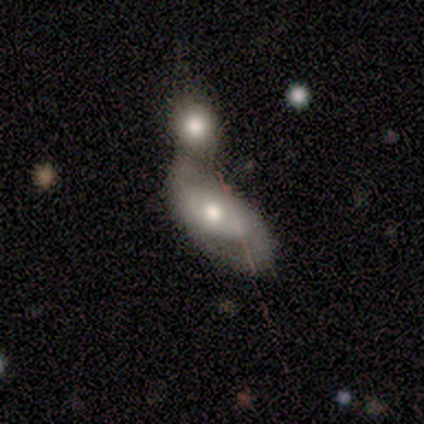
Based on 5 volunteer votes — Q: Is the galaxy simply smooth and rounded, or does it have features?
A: featured or disk — 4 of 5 (80%).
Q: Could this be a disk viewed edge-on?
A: no — 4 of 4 (100%).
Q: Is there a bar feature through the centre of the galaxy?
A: no — 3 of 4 (75%).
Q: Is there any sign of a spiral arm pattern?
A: yes — 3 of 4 (75%).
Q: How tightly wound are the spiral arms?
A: loose — 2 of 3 (67%).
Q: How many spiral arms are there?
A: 2 — 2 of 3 (67%).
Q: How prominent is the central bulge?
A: moderate — 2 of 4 (50%).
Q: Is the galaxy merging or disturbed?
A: minor disturbance — 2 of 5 (40%, tied with merger).